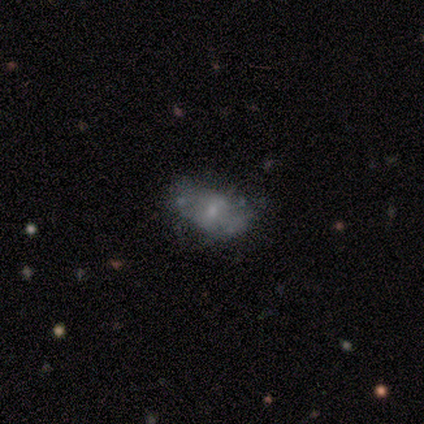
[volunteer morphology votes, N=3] This is clearly a featured or disk galaxy (100%). It is clearly not viewed edge-on (100%). Bar: likely no (67%). Spiral arm pattern: clearly no (100%). Central bulge: likely small (67%). Merging: likely major disturbance (67%).